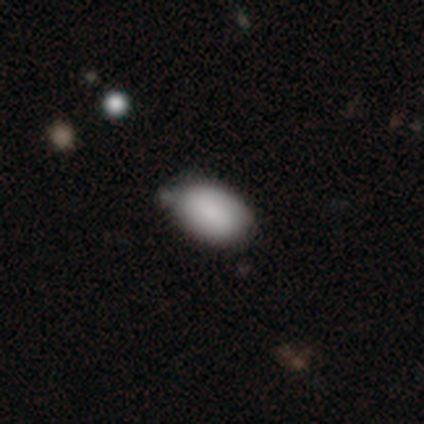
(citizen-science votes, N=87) Smooth or featured? 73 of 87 (84%) said smooth. How rounded? 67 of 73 (92%) said in between. Merging? 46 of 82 (56%) said none.